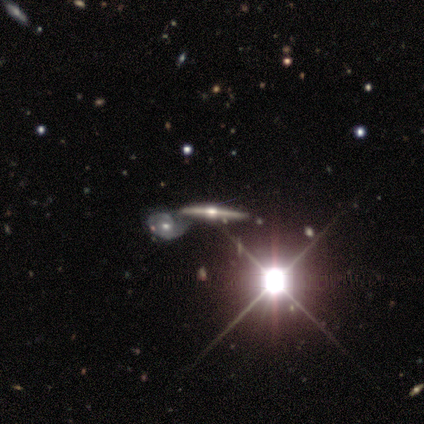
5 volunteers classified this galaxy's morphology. Volunteers were most divided on "merging": none: 60%, minor disturbance: 20%, merger: 20%, major disturbance: 0%. More confident: smooth or featured — featured or disk (100%); edge-on disk — yes (100%); edge-on bulge — rounded (100%).